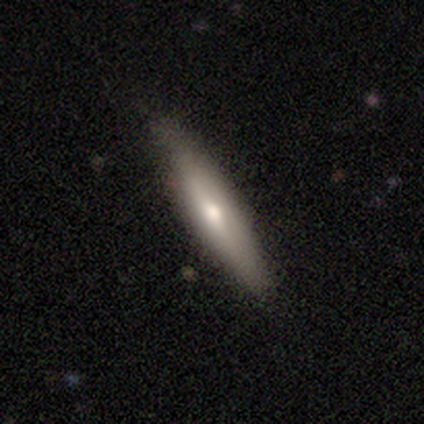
Smooth or featured? smooth (60%)
How rounded? cigar-shaped (67%)
Merging? none (80%)